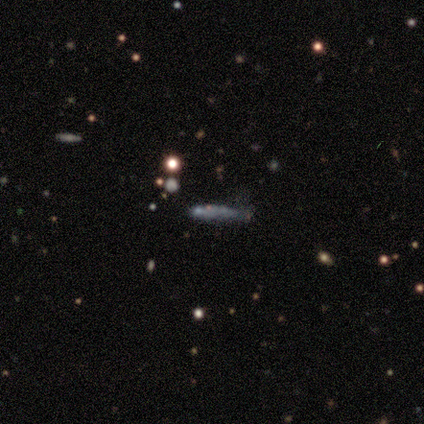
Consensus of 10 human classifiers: A smooth galaxy with no disk features (50%) that is cigar-shaped (60%).

Vote fractions:
- Smooth or featured? smooth: 50% / star or artifact: 40% / featured or disk: 10%
- How rounded? cigar-shaped: 60% / in between: 40% / round: 0%
- Merging? minor disturbance: 67% / major disturbance: 33% / none: 0% / merger: 0%